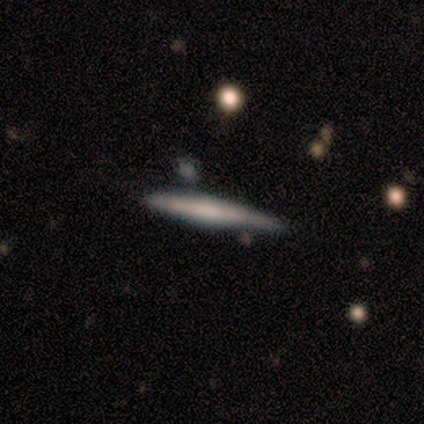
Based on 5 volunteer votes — Volunteers were most divided on "smooth or featured": smooth: 80%, featured or disk: 20%, star or artifact: 0%. More confident: how rounded — cigar-shaped (100%); merging — none (80%).